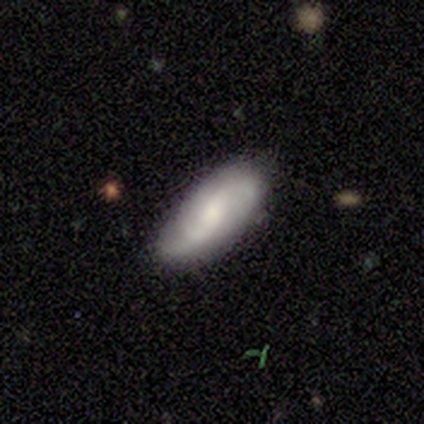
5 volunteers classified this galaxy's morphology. This appears to be a featured or disk galaxy (60%) with a weak bar (67%), 2 (67%) loose (67%) spiral arms (100%) and a moderate central bulge (67%). Merging: none (100%).